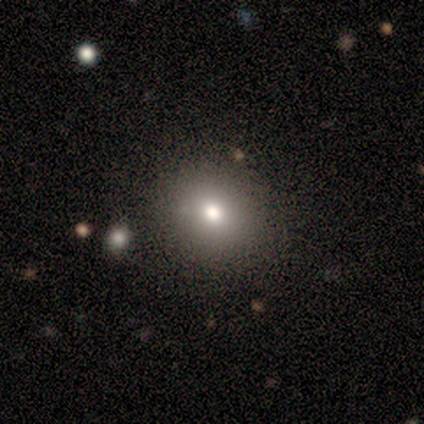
Smooth or featured? smooth (54%)
How rounded? round (77%)
Merging? none (97%)